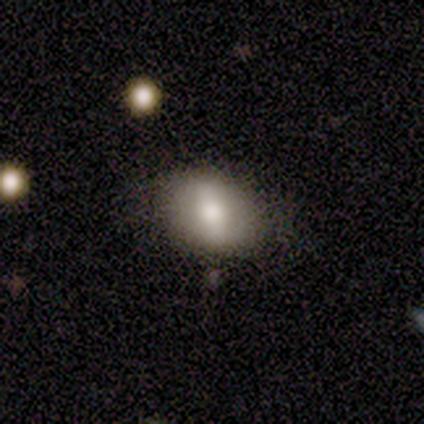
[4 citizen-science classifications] A featured or disk galaxy (75%) with a strong bar (67%), no spiral arms (100%) and a large central bulge (67%). Merging: none (100%).